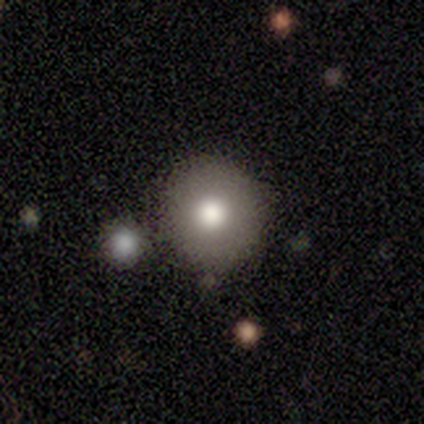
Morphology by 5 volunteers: Smooth or featured?
  - smooth: 60% *
  - featured or disk: 20%
  - star or artifact: 20%
How rounded?
  - round: 67% *
  - in between: 33%
  - cigar-shaped: 0%
Merging?
  - none: 75% *
  - minor disturbance: 25%
  - major disturbance: 0%
  - merger: 0%